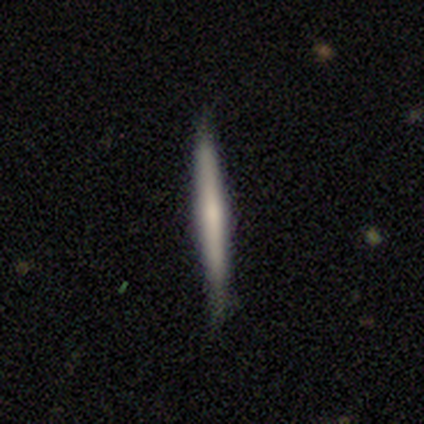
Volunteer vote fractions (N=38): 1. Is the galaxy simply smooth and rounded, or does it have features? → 53% smooth, 39% featured or disk, 8% star or artifact.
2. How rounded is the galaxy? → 100% cigar-shaped, 0% round, 0% in between.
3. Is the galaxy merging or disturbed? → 91% none, 9% minor disturbance, 0% major disturbance, 0% merger.